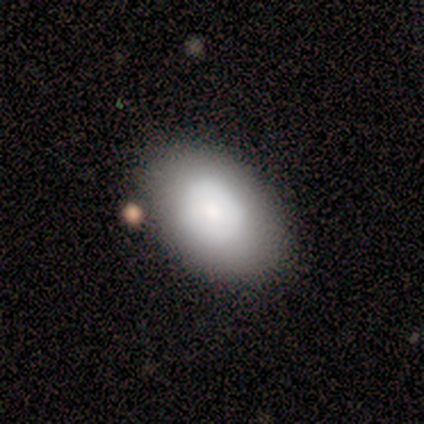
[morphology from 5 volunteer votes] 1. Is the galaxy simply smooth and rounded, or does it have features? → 80% smooth, 20% featured or disk, 0% star or artifact.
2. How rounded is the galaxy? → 100% in between, 0% round, 0% cigar-shaped.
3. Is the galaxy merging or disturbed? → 80% none, 20% minor disturbance, 0% major disturbance, 0% merger.